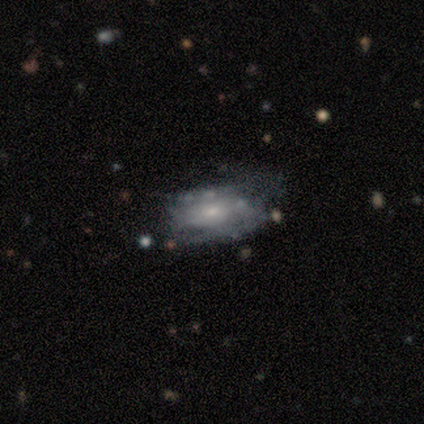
Smooth or featured? 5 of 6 (83%) said featured or disk. Edge-on disk? 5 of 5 (100%) said no. Bar? 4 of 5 (80%) said no. Spiral arms? 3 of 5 (60%) said yes. Spiral winding? 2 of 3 (67%) said medium. Spiral arm count? 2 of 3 (67%) said 2. Bulge size? 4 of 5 (80%) said small. Merging? 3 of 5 (60%) said none.